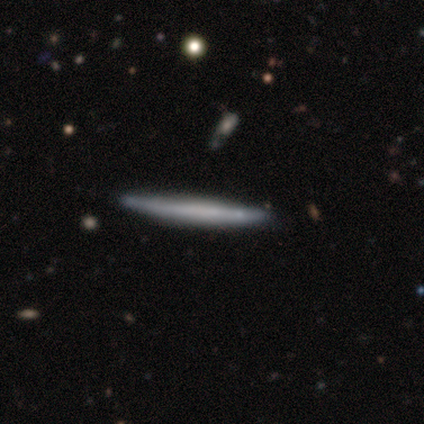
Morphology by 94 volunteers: This is possibly a featured or disk galaxy (49%). It is clearly viewed edge-on (91%). Edge-on bulge: clearly none (81%). Merging: clearly none (85%).